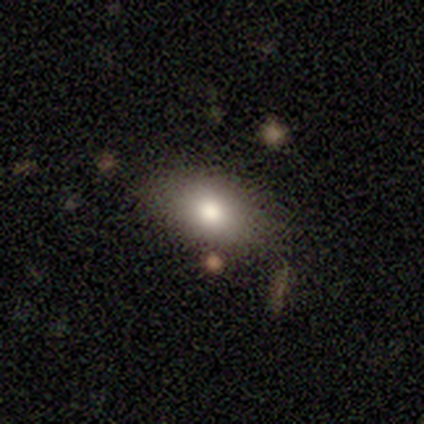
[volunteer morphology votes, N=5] type=smooth (80%); roundness=in between (75%); merging=none (100%).